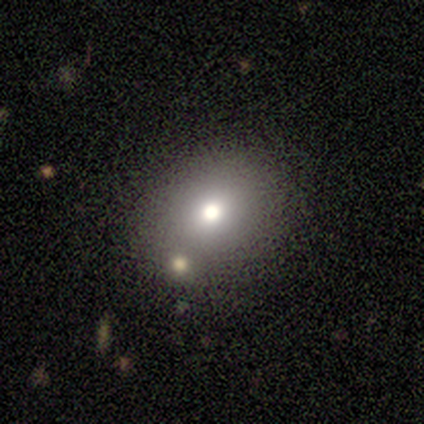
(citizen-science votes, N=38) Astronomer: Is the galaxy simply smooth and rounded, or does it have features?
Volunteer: smooth — 68%.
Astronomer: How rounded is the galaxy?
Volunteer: round — 54% (runner-up: in between, 46%).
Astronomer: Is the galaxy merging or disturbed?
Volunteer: none — 61%.